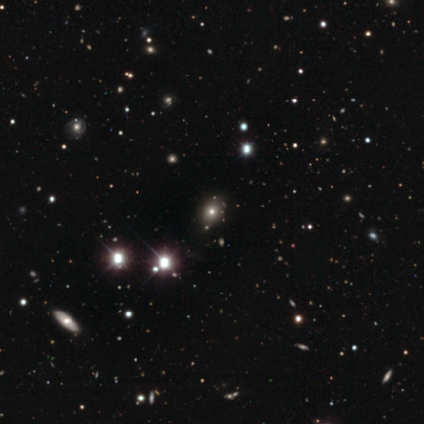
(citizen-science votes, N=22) Smooth or featured? 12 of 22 (55%) said smooth. How rounded? 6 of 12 (50%, tied with in between) said round. Merging? 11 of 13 (85%) said none.